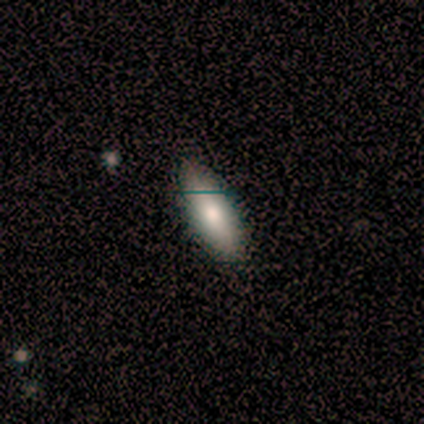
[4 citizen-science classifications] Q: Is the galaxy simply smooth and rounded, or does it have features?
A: smooth — 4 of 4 (100%).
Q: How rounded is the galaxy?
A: cigar-shaped — 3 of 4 (75%).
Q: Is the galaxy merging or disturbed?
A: none — 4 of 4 (100%).